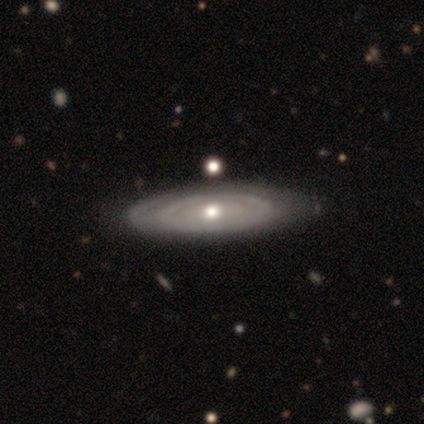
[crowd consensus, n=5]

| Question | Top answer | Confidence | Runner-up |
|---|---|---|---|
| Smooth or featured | featured or disk | 80% | smooth (20%) |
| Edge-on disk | no | 75% | yes (25%) |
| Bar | no | 100% | — |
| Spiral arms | no | 100% | — |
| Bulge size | small | 67% | moderate (33%) |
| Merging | none | 80% | minor disturbance (20%) |